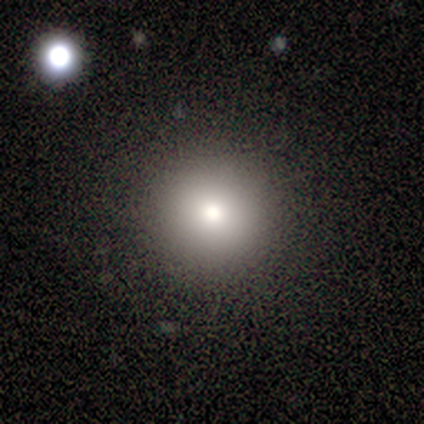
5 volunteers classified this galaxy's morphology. This is clearly a smooth galaxy (80%). How rounded: clearly round (100%). Merging: clearly none (100%).